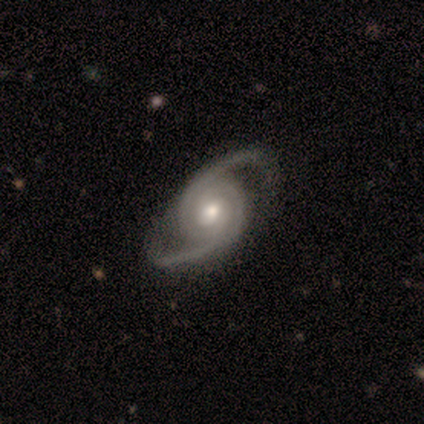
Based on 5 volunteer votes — smooth-or-featured: featured or disk: 80% | star or artifact: 20% | smooth: 0%
  disk-edge-on: no: 100% | yes: 0%
    bar: no: 75% | strong: 25% | weak: 0%
    has-spiral-arms: yes: 100% | no: 0%
      spiral-winding: tight: 50% | medium: 25% | loose: 25%
      spiral-arm-count: 2: 75% | can't tell: 25% | 1: 0% | 3: 0% | 4: 0% | more than 4: 0%
    bulge-size: moderate: 75% | large: 25% | dominant: 0% | small: 0% | none: 0%
  merging: none: 100% | minor disturbance: 0% | major disturbance: 0% | merger: 0%